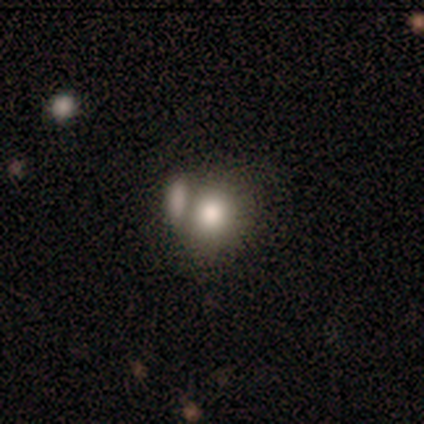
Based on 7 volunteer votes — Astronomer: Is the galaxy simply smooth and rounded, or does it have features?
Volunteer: smooth — 86%.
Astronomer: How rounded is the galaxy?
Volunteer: round — 50%, tied with in between at 50%.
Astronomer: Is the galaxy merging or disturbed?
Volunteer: merger — 57%.